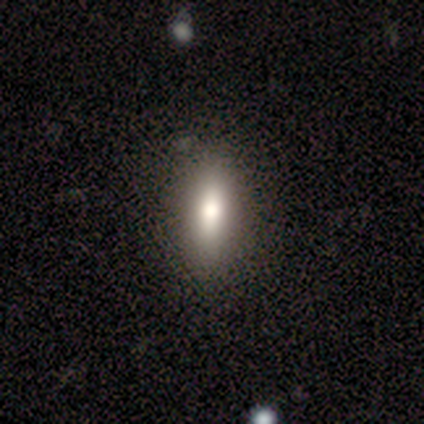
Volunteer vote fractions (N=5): Overall: smooth (80%). How rounded: in between (75%). Merging: none (80%).